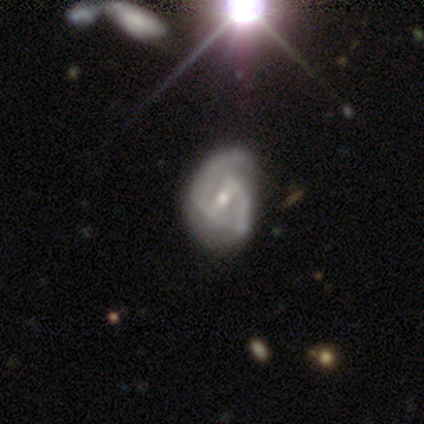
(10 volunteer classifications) Overall: featured or disk (60%; smooth 20%). Edge-on disk: no (100%). Bar: weak (50%; strong 33%). Spiral arms: yes (100%). Spiral arm count: 2 (100%). Spiral winding: medium (50%; tight 33%). Bulge size: small (67%; moderate 33%). Merging: none (62%; minor disturbance 25%).